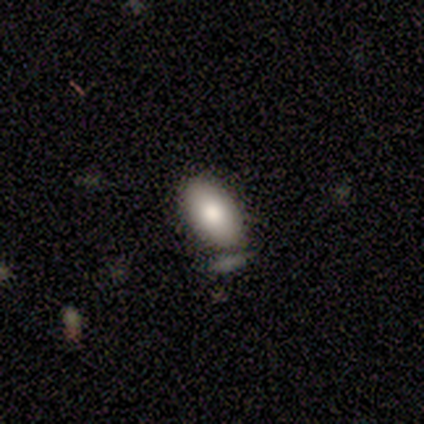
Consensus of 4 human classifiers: smooth 75%, featured or disk 25%, star or artifact 0%. Down the decision tree: how rounded — in between (100%); merging — none (100%).